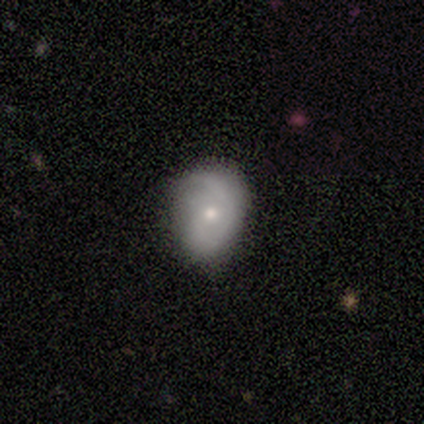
Smooth or featured?
  - featured or disk: 55% *
  - smooth: 42%
  - star or artifact: 3%
Edge-on disk?
  - no: 100% *
  - yes: 0%
Bar?
  - no: 71% *
  - weak: 24%
  - strong: 5%
Spiral arms?
  - yes: 81% *
  - no: 19%
Spiral winding?
  - medium: 41% *
  - tight: 29%
  - loose: 29%
Spiral arm count?
  - 2: 59% *
  - 1: 24%
  - can't tell: 12%
  - 3: 6%
  - 4: 0%
  - more than 4: 0%
Bulge size?
  - small: 52% *
  - moderate: 48%
  - dominant: 0%
  - large: 0%
  - none: 0%
Merging?
  - none: 62% *
  - minor disturbance: 30%
  - major disturbance: 8%
  - merger: 0%